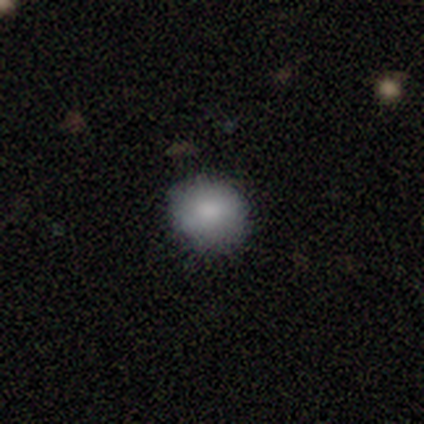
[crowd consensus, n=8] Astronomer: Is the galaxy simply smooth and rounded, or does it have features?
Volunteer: smooth — 75%.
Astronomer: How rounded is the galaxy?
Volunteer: round — 67%.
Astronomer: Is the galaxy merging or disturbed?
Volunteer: none — 83%.